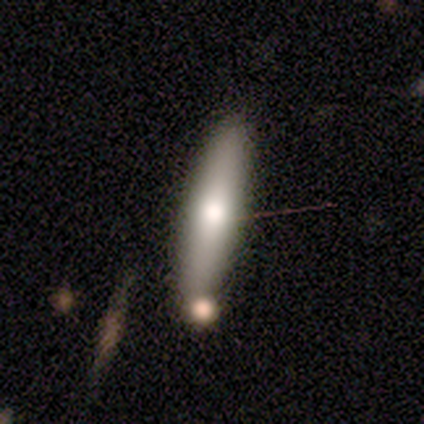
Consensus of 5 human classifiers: This appears to be a smooth galaxy with no disk features (100%) that is cigar-shaped (80%). Merging: none (80%).